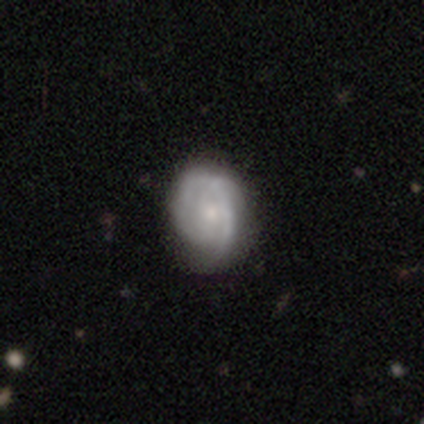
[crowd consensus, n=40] Smooth or featured? 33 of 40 (82%) said featured or disk. Edge-on disk? 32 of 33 (97%) said no. Bar? 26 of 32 (81%) said no. Spiral arms? 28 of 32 (88%) said yes. Spiral winding? 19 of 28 (68%) said tight. Spiral arm count? 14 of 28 (50%) said can't tell. Bulge size? 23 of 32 (72%) said small. Merging? 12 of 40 (30%) said none.